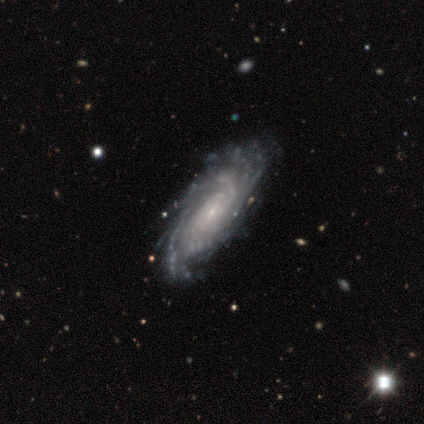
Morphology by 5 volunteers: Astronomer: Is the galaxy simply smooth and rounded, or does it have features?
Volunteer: featured or disk — 60%.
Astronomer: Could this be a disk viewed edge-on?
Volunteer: no — 100%.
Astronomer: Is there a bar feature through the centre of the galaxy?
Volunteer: no — 67%.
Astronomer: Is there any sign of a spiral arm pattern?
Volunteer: yes — 100%.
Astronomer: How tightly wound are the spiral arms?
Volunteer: tight — 67%.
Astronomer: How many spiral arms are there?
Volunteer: can't tell — 67%.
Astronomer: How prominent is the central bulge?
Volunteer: small — 67%.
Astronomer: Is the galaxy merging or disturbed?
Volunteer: none — 75%.